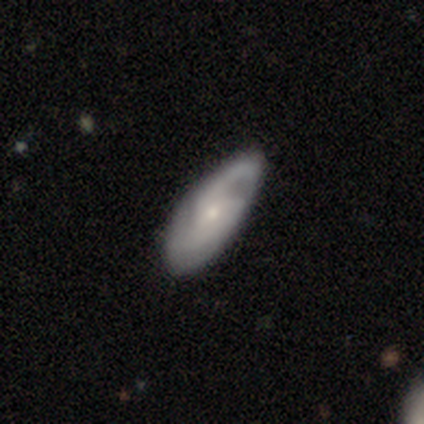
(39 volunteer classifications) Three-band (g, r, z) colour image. It shows a featured or disk galaxy (82%) with no bar (68%), 2 (52%) medium (55%) spiral arms (94%) and a small central bulge (81%). Merging: none (67%).